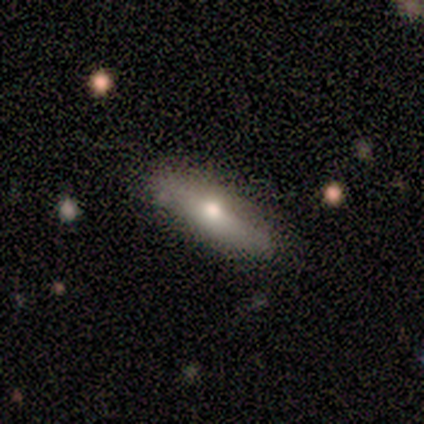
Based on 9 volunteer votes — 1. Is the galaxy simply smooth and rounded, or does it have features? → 67% smooth, 22% featured or disk, 11% star or artifact.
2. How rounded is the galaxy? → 67% cigar-shaped, 33% in between, 0% round.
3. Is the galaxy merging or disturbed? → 88% none, 12% minor disturbance, 0% major disturbance, 0% merger.